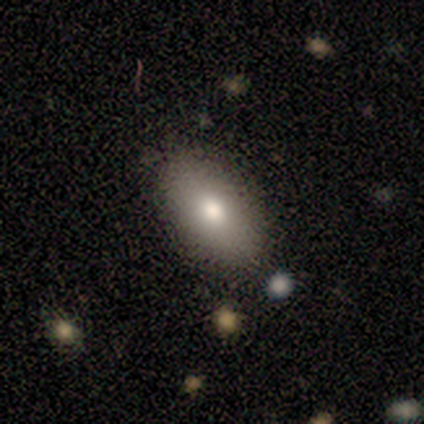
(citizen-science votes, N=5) smooth-or-featured: smooth: 80% | featured or disk: 20% | star or artifact: 0%
  how-rounded: in between: 100% | round: 0% | cigar-shaped: 0%
  merging: none: 100% | minor disturbance: 0% | major disturbance: 0% | merger: 0%